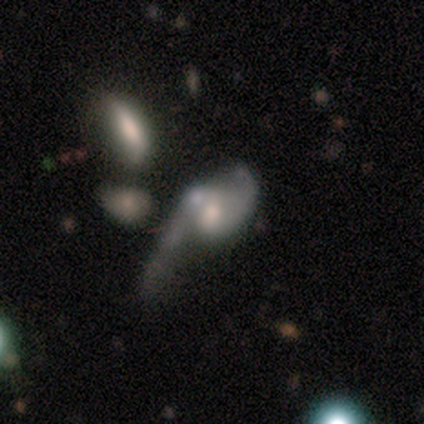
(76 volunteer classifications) Morphology: type=featured or disk (75%); edge-on=no (96%); bar=no (69%); spiral arms=yes (75%); winding=loose (63%); arm count=2 (80%); bulge=moderate (56%); merging=major disturbance (48%).